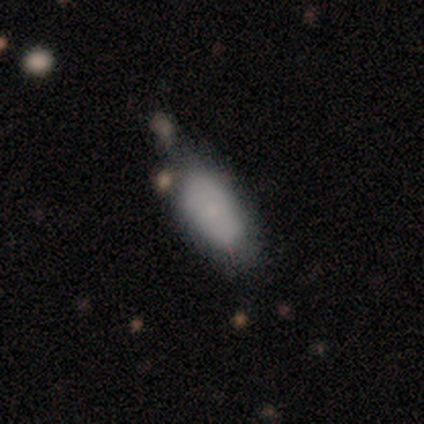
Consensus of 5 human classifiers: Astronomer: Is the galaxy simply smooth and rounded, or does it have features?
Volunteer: smooth — 80%.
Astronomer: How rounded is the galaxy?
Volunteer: in between — 100%.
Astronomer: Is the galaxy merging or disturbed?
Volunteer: none — 80%.